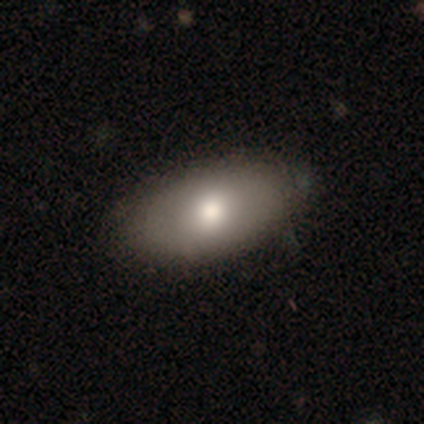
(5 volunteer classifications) smooth 60%, featured or disk 40%, star or artifact 0%. Down the decision tree: how rounded — in between (100%); merging — none (80%).